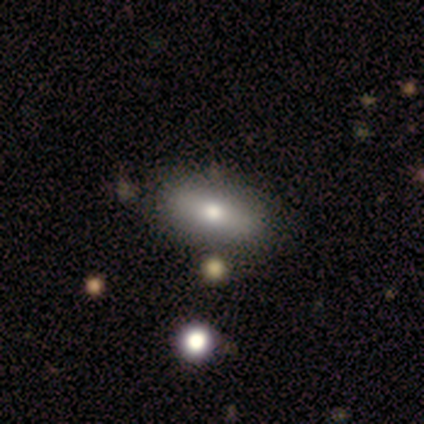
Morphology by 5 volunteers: This appears to be a smooth galaxy with no disk features (80%) that is in between round and cigar-shaped (100%). Merging: none (80%).